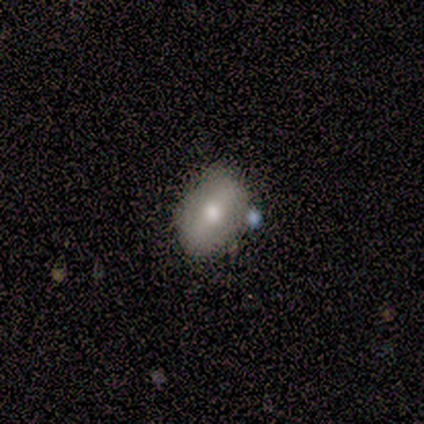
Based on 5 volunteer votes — smooth 80%, featured or disk 20%, star or artifact 0%. Down the decision tree: how rounded — round (50%, tied with in between); merging — none (100%).